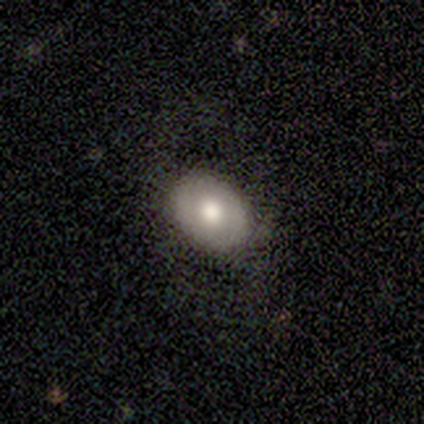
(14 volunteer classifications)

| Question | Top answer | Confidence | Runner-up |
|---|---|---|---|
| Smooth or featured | featured or disk | 50% | smooth (43%) |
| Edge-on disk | no | 100% | — |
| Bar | no | 57% | weak (43%) |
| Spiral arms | no | 71% | yes (29%) |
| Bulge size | moderate | 71% | large (29%) |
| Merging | none | 77% | minor disturbance (15%) |